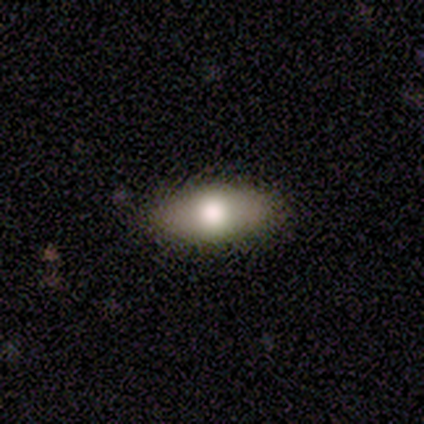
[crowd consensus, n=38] This appears to be a smooth galaxy with no disk features (76%) that is in between round and cigar-shaped (79%). Merging: none (89%).